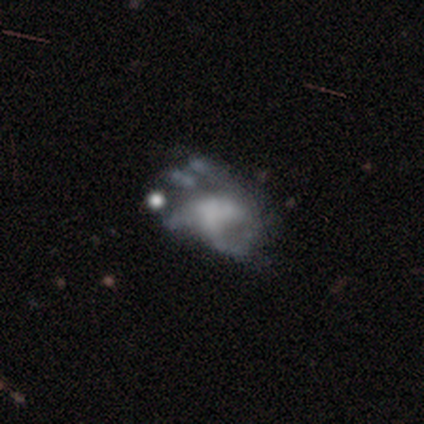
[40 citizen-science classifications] A featured or disk galaxy (65%) with no bar (84%), no spiral arms (76%) and no central bulge (48%). Merging: none (29%).